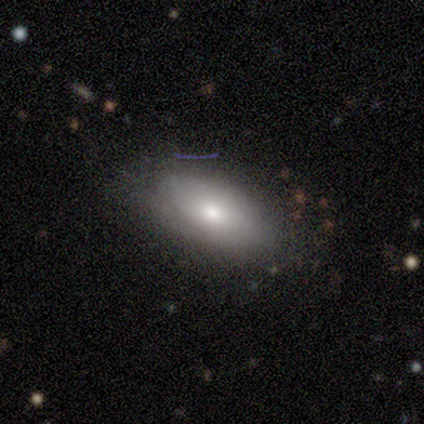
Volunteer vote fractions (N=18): Smooth or featured: smooth — 78% (featured or disk — 17%)
How rounded: in between — 86% (round — 14%)
Merging: none — 71% (minor disturbance — 24%)